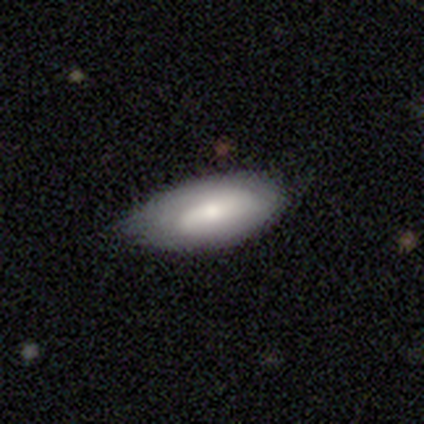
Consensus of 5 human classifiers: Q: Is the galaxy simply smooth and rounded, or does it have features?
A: featured or disk — 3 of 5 (60%).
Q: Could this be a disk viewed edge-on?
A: no — 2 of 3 (67%).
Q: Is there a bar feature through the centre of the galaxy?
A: strong — 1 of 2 (50%, tied with weak).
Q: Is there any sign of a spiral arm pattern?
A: yes — 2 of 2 (100%).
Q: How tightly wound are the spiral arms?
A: tight — 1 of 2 (50%, tied with medium).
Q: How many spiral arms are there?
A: can't tell — 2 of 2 (100%).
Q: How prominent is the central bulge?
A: large — 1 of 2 (50%, tied with moderate).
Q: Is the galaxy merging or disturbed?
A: none — 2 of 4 (50%, tied with minor disturbance).